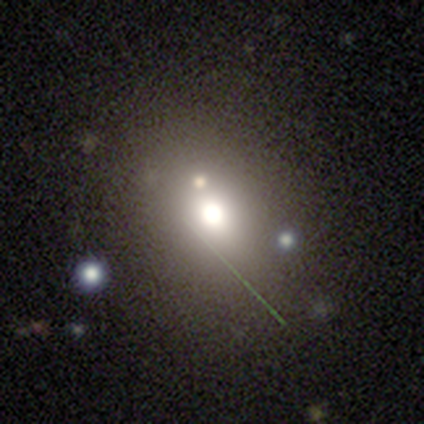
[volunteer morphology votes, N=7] smooth_or_featured: smooth (p=0.71) [alt: star or artifact p=0.29]
how_rounded: in between (p=0.60) [alt: round p=0.40]
merging: none (p=0.40) [tied with: minor disturbance p=0.40]